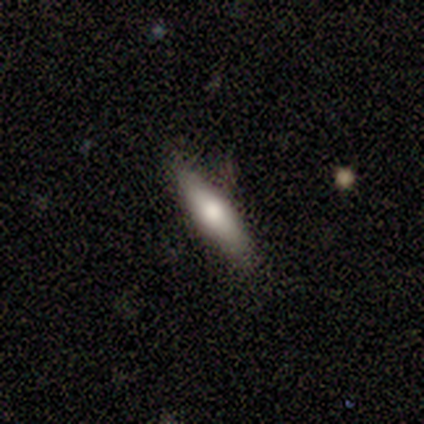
Smooth or featured?
  - smooth: 60% *
  - featured or disk: 40%
  - star or artifact: 0%
How rounded?
  - cigar-shaped: 100% *
  - round: 0%
  - in between: 0%
Merging?
  - none: 100% *
  - minor disturbance: 0%
  - major disturbance: 0%
  - merger: 0%